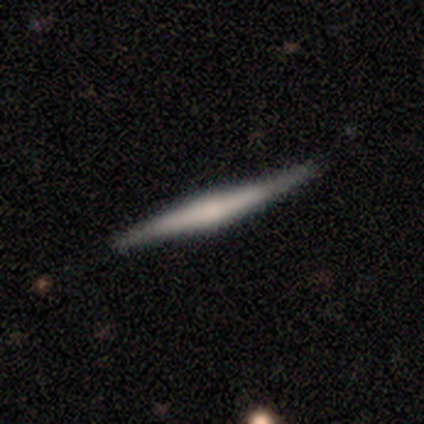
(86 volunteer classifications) Smooth or featured: featured or disk — 65% (smooth — 31%)
Edge-on disk: yes — 100%
Edge-on bulge: none — 41% (rounded — 38%)
Merging: none — 83% (minor disturbance — 16%)